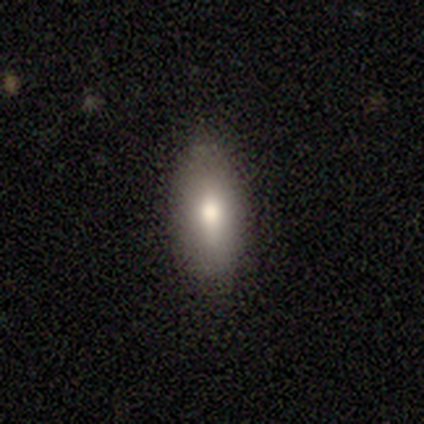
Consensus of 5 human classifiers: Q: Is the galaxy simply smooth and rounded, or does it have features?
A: smooth — 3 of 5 (60%).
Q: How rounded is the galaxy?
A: in between — 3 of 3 (100%).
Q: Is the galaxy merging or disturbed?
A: none — 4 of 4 (100%).